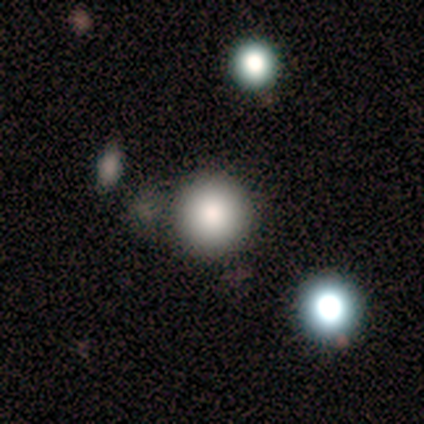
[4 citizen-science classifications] Morphology: type=smooth (75%); roundness=round (100%); merging=none (75%).